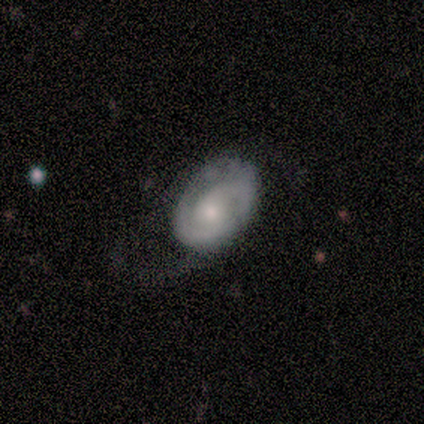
featured or disk 80%, star or artifact 20%, smooth 0%. Down the decision tree: edge-on disk — no (100%); bar — no (75%); spiral arms — yes (100%); spiral arm count — 2 (75%); spiral winding — medium (100%); bulge size — small (50%); merging — none (50%).